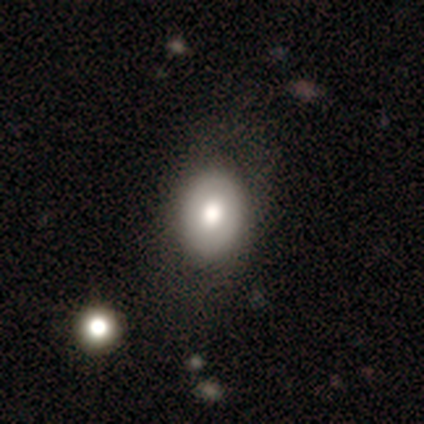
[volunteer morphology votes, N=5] smooth_or_featured: featured or disk (p=0.60) [alt: smooth p=0.40]
disk_edge_on: no (p=1.00)
bar: no (p=1.00)
has_spiral_arms: no (p=1.00)
bulge_size: moderate (p=0.67) [alt: large p=0.33]
merging: none (p=0.80) [alt: merger p=0.20]